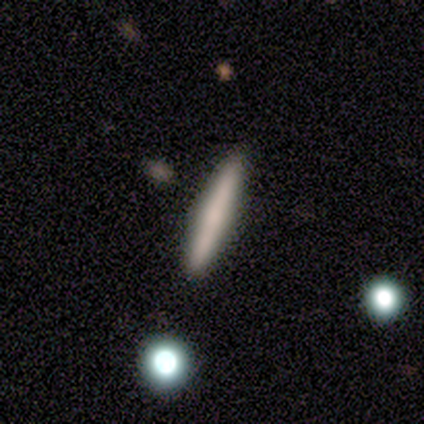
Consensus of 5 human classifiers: This is clearly a featured or disk galaxy (80%). It is clearly viewed edge-on (100%). Edge-on bulge: possibly none (50%). Merging: clearly none (100%).